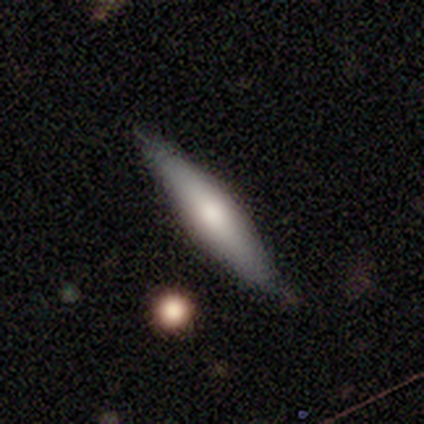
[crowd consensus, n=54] Q: Smooth or featured?
A: smooth (52%); runner-up: featured or disk (48%)
Q: How rounded?
A: cigar-shaped (79%); runner-up: in between (21%)
Q: Merging?
A: none (87%); runner-up: minor disturbance (11%)